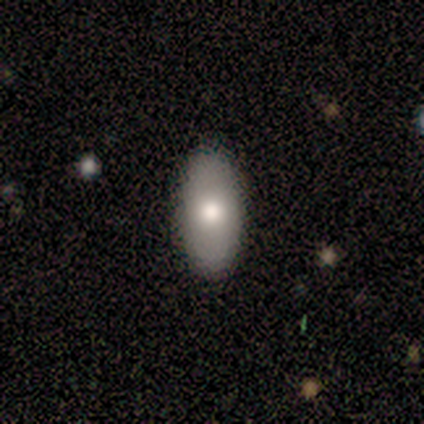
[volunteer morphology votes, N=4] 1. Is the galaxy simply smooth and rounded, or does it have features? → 75% smooth, 25% featured or disk, 0% star or artifact.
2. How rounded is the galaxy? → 100% in between, 0% round, 0% cigar-shaped.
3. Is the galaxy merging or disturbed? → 100% none, 0% minor disturbance, 0% major disturbance, 0% merger.